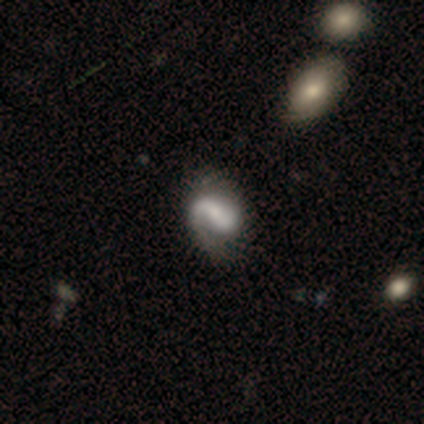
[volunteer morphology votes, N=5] Smooth or featured?
  - featured or disk: 80% *
  - star or artifact: 20%
  - smooth: 0%
Edge-on disk?
  - no: 100% *
  - yes: 0%
Bar?
  - weak: 50% *
  - strong: 25%
  - no: 25%
Spiral arms?
  - yes: 100% *
  - no: 0%
Spiral winding?
  - medium: 75% *
  - loose: 25%
  - tight: 0%
Spiral arm count?
  - 1: 50% * (tied)
  - 2: 50% * (tied)
  - 3: 0%
  - 4: 0%
  - more than 4: 0%
  - can't tell: 0%
Bulge size?
  - small: 50% *
  - large: 25%
  - none: 25%
  - dominant: 0%
  - moderate: 0%
Merging?
  - none: 100% *
  - minor disturbance: 0%
  - major disturbance: 0%
  - merger: 0%